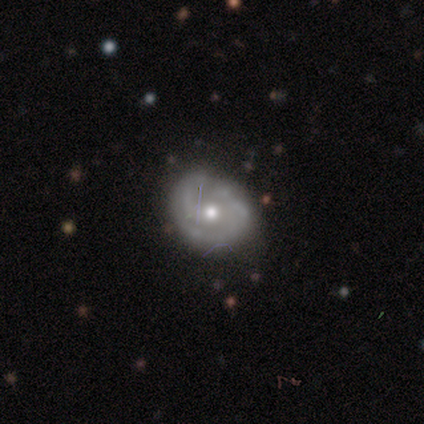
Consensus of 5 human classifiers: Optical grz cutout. It shows a featured or disk galaxy (60%) with no bar (67%), 2 (100%) tight (100%) spiral arms (67%) and a moderate central bulge (67%). Merging: none (100%).